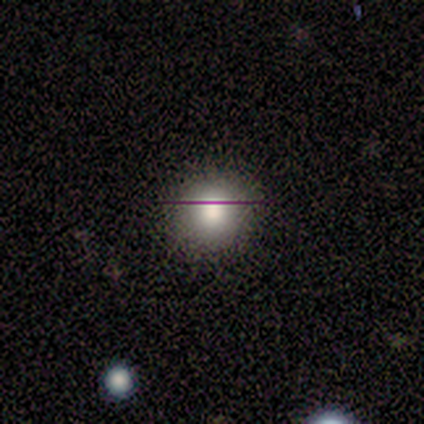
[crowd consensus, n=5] Morphology: type=smooth (100%); roundness=round (100%); merging=none (100%).